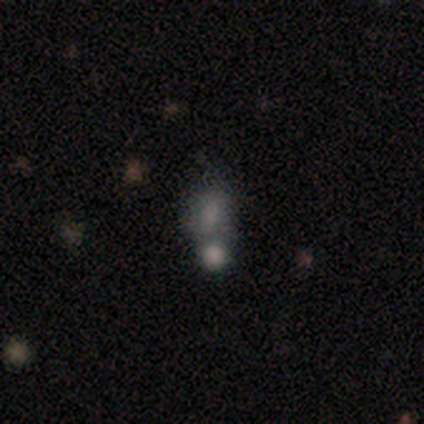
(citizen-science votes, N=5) A smooth galaxy with no disk features (80%) that is in between round and cigar-shaped (100%). Merging: minor disturbance (40%, tied with merger).